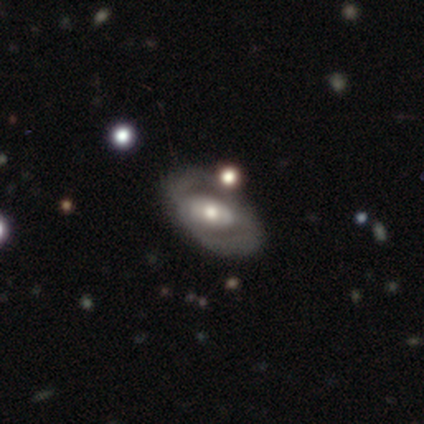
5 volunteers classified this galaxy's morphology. Smooth or featured? 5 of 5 (100%) said featured or disk. Edge-on disk? 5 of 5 (100%) said no. Bar? 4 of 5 (80%) said no. Spiral arms? 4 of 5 (80%) said yes. Spiral winding? 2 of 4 (50%) said loose. Spiral arm count? 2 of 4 (50%, tied with can't tell) said 2. Bulge size? 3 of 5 (60%) said moderate. Merging? 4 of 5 (80%) said none.